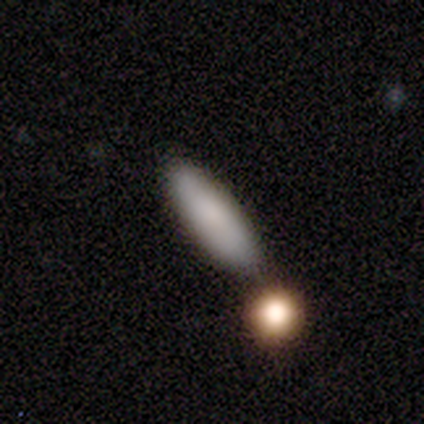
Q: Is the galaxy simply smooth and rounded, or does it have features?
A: smooth — 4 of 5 (80%).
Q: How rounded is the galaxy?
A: cigar-shaped — 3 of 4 (75%).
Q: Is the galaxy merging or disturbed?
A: none — 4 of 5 (80%).